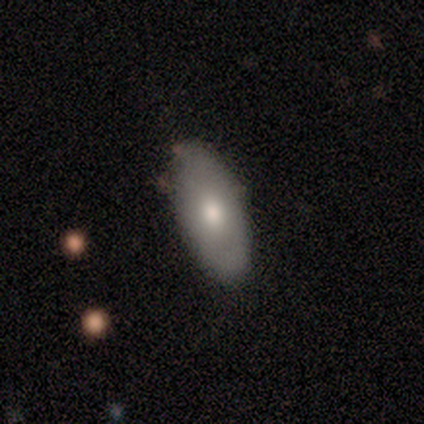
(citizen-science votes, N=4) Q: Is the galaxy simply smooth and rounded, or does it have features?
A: smooth — 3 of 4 (75%).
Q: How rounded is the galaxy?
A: in between — 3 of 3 (100%).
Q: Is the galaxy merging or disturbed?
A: none — 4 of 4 (100%).